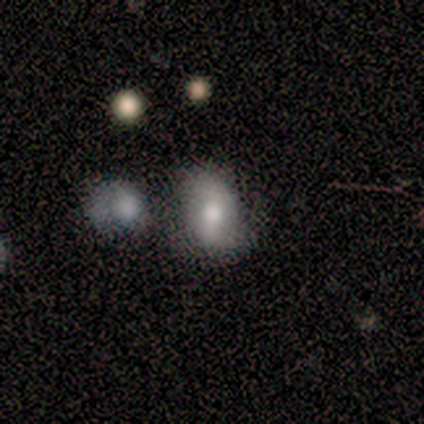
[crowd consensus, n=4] smooth 50%, featured or disk 25%, star or artifact 25%. Down the decision tree: how rounded — in between (100%); merging — none (33%, tied with minor disturbance and merger).